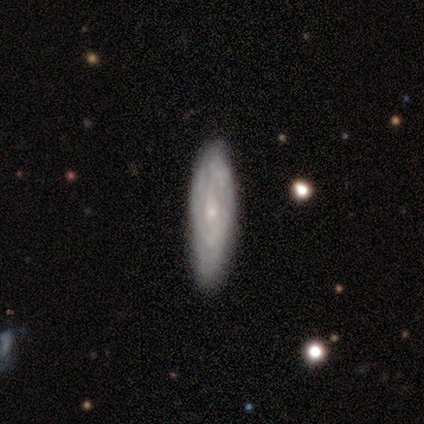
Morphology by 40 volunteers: smooth-or-featured: featured or disk: 60% | smooth: 30% | star or artifact: 10%
  disk-edge-on: no: 88% | yes: 12%
    bar: no: 81% | weak: 14% | strong: 5%
    has-spiral-arms: yes: 81% | no: 19%
      spiral-winding: tight: 59% | medium: 24% | loose: 18%
      spiral-arm-count: can't tell: 71% | 1: 12% | 2: 12% | 4: 6% | 3: 0% | more than 4: 0%
    bulge-size: small: 81% | none: 14% | moderate: 5% | dominant: 0% | large: 0%
  merging: none: 83% | minor disturbance: 8% | major disturbance: 8% | merger: 0%